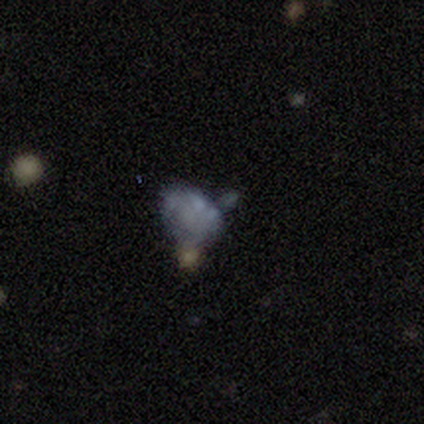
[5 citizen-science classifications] A smooth galaxy with no disk features (40%, tied with featured or disk) that is in between round and cigar-shaped (100%).

Vote fractions:
- Smooth or featured? smooth: 40% (tied) / featured or disk: 40% (tied) / star or artifact: 20%
- How rounded? in between: 100% / round: 0% / cigar-shaped: 0%
- Merging? major disturbance: 50% / none: 25% / minor disturbance: 25% / merger: 0%